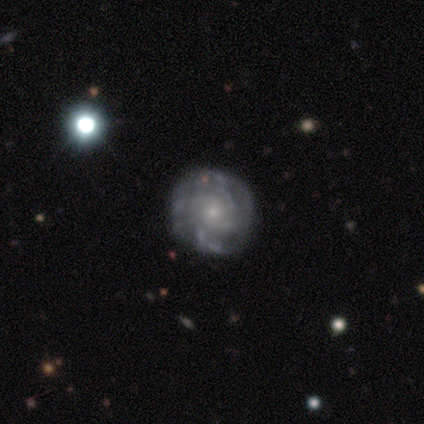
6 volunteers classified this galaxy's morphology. featured or disk 67%, smooth 17%, star or artifact 17%. Down the decision tree: edge-on disk — no (100%); bar — weak (50%, tied with no); spiral arms — yes (100%); spiral arm count — 4 (50%, tied with can't tell); spiral winding — tight (50%, tied with medium); bulge size — small (75%); merging — none (60%).